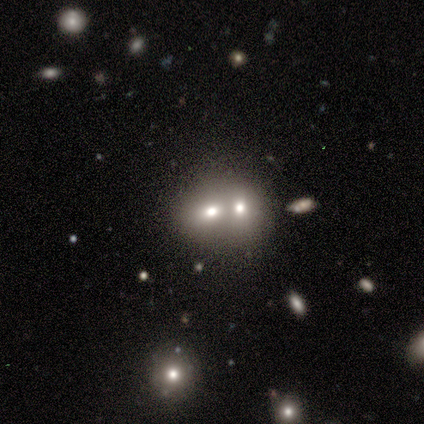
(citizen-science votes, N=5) This appears to be a smooth galaxy with no disk features (40%, tied with featured or disk) that is round (100%). Merging: none (50%, tied with merger).